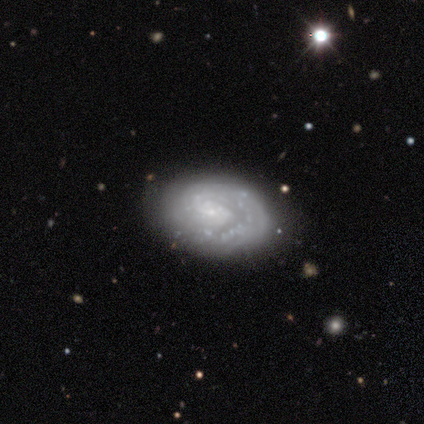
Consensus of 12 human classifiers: A featured or disk galaxy (92%) with no bar (73%), tight (89%) spiral arms (82%) and a small central bulge (55%). Merging: none (83%).